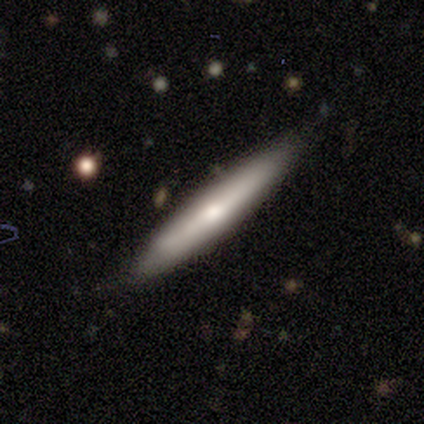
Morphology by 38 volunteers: Volunteers were most divided on "smooth or featured": smooth: 68%, featured or disk: 29%, star or artifact: 3%. More confident: how rounded — cigar-shaped (96%); merging — none (76%).